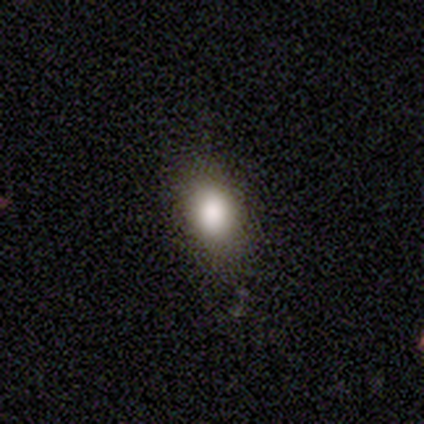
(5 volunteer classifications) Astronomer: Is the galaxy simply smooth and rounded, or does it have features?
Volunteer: smooth — 100%.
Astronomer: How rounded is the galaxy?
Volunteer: in between — 80%.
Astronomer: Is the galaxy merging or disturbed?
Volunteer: none — 100%.